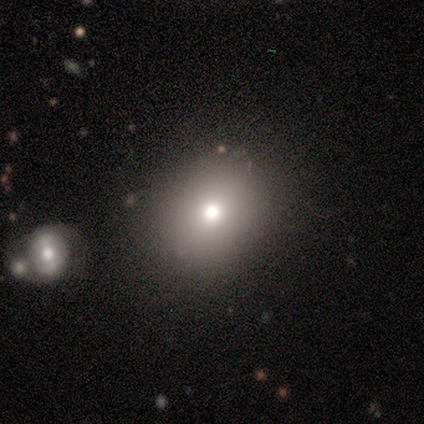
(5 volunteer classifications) smooth-or-featured: smooth: 40% (tied) | star or artifact: 40% (tied) | featured or disk: 20%
  how-rounded: round: 50% (tied) | in between: 50% (tied) | cigar-shaped: 0%
  merging: none: 100% | minor disturbance: 0% | major disturbance: 0% | merger: 0%